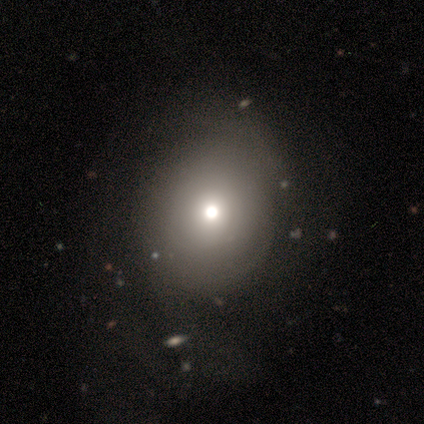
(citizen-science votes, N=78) This appears to be a smooth galaxy with no disk features (72%) that is round (73%). Merging: none (25%).